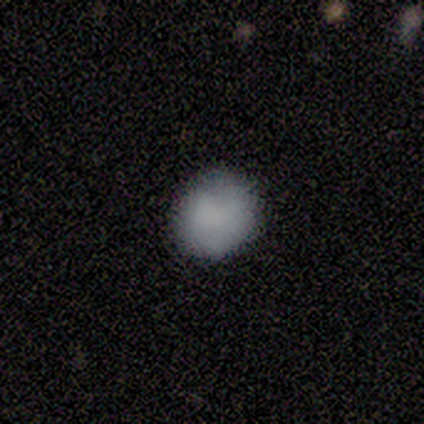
Overall: smooth (100%). How rounded: round (50%, tied with in between). Merging: none (75%).